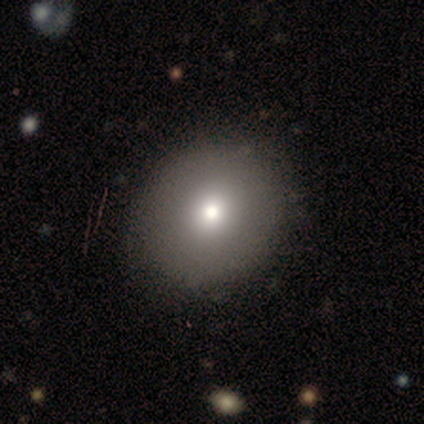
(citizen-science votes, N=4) Smooth or featured? smooth (75%)
How rounded? round (100%)
Merging? none (75%)